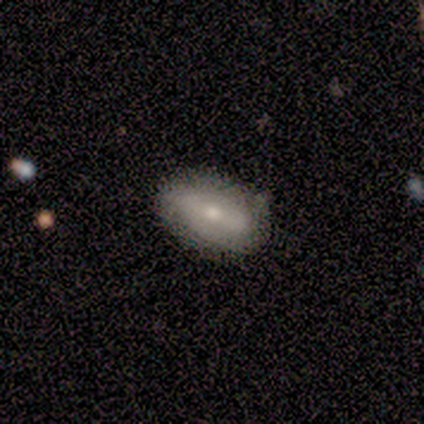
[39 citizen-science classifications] smooth_or_featured: smooth (p=0.54) [alt: featured or disk p=0.38]
how_rounded: in between (p=1.00)
merging: none (p=0.83) [alt: minor disturbance p=0.14]